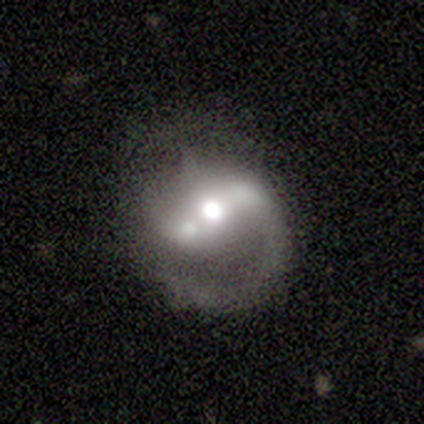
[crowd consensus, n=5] Overall: featured or disk (100%). Edge-on disk: no (100%). Bar: strong (100%). Spiral arms: yes (80%). Spiral arm count: 1 (75%). Spiral winding: medium (50%, tied with loose). Bulge size: dominant (40%, tied with moderate). Merging: minor disturbance (80%).